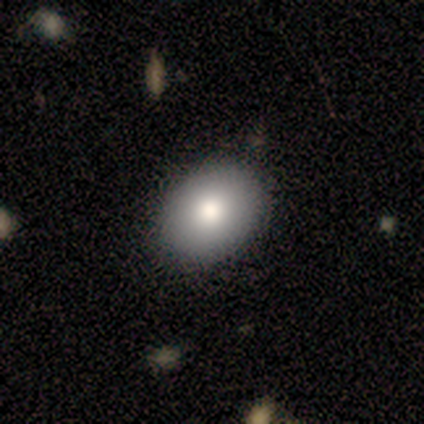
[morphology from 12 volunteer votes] This appears to be a smooth galaxy with no disk features (75%) that is in between round and cigar-shaped (100%). Merging: none (83%).